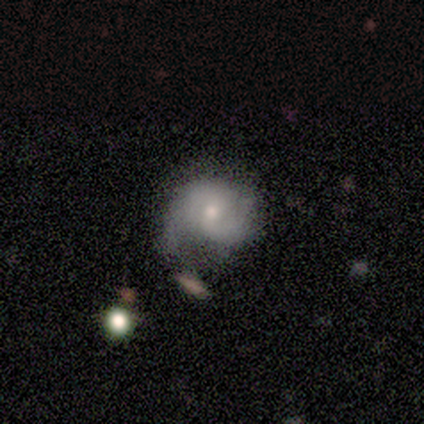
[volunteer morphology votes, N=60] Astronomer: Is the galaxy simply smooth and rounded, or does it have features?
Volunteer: featured or disk — 72%.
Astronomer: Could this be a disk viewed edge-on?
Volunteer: no — 98%.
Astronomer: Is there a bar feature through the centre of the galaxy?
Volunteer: no — 62%.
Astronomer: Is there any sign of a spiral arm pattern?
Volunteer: yes — 93%.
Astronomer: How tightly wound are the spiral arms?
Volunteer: medium — 46% (runner-up: tight, 31%).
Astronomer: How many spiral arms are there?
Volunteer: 2 — 95%.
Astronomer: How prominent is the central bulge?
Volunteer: moderate — 48%, tied with small at 48%.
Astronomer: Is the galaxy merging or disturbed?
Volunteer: minor disturbance — 46% (runner-up: none, 30%).